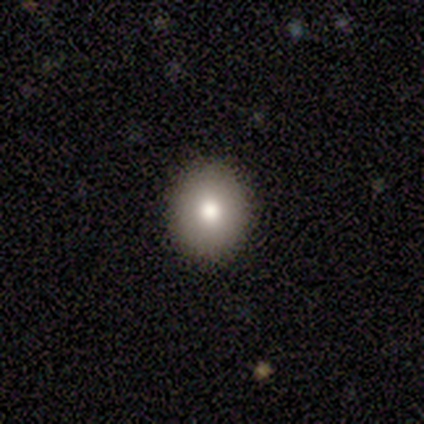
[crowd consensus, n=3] Smooth or featured: smooth — 67% (featured or disk — 33%)
How rounded: round — 100%
Merging: none — 67% (minor disturbance — 33%)